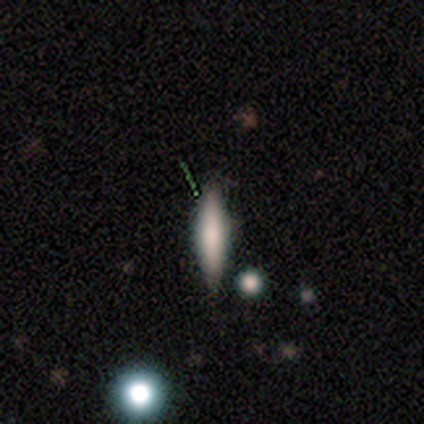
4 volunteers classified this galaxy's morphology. featured or disk 50%, smooth 25%, star or artifact 25%. Down the decision tree: edge-on disk — yes (50%, tied with no); edge-on bulge — rounded (100%); merging — none (67%).